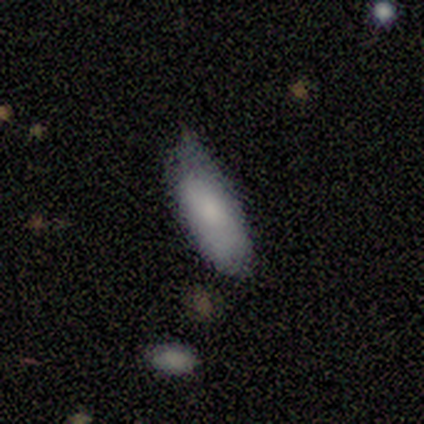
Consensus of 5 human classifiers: smooth 80%, star or artifact 20%, featured or disk 0%. Down the decision tree: how rounded — cigar-shaped (100%); merging — none (50%, tied with minor disturbance).